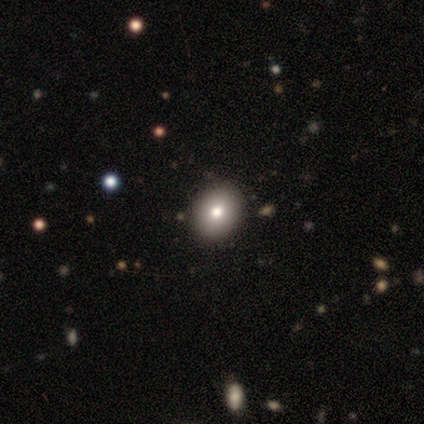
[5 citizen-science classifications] Smooth or featured? 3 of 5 (60%) said smooth. How rounded? 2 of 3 (67%) said round. Merging? 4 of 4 (100%) said none.